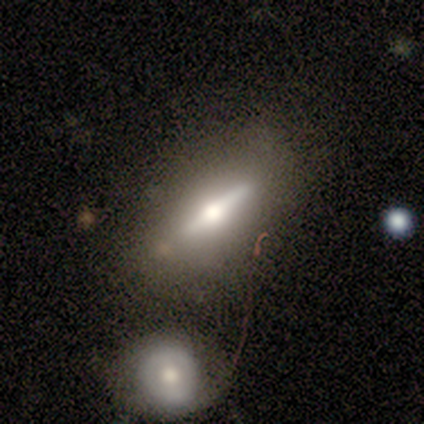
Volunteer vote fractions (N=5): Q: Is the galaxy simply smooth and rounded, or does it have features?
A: featured or disk — 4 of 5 (80%).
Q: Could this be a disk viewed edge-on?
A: yes — 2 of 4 (50%, tied with no).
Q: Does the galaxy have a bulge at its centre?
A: rounded — 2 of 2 (100%).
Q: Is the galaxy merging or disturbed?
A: none — 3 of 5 (60%).